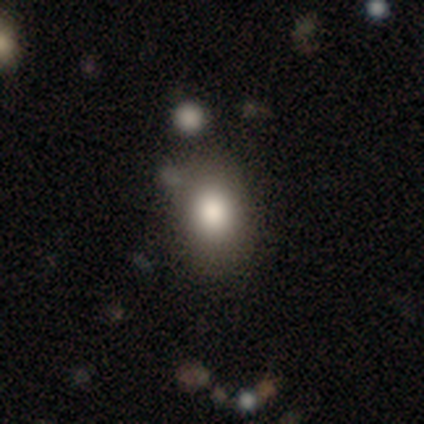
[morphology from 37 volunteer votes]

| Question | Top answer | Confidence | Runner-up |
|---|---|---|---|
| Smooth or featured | smooth | 73% | featured or disk (14%) |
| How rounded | in between | 63% | round (37%) |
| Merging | none | 72% | minor disturbance (16%) |